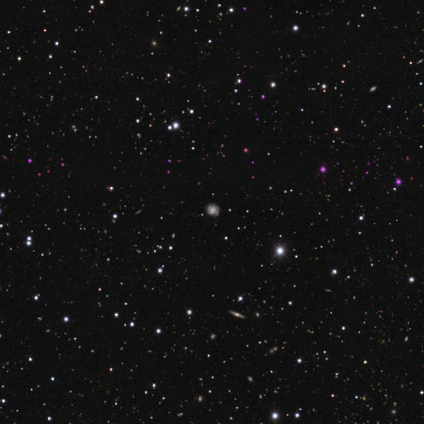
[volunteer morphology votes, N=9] Smooth or featured? featured or disk (44%)
Edge-on disk? no (75%)
Bar? no (67%)
Spiral arms? yes (100%)
Spiral winding? medium (67%)
Spiral arm count? 2 (33%, tied with 4 and can't tell)
Bulge size? moderate (100%)
Merging? none (83%)